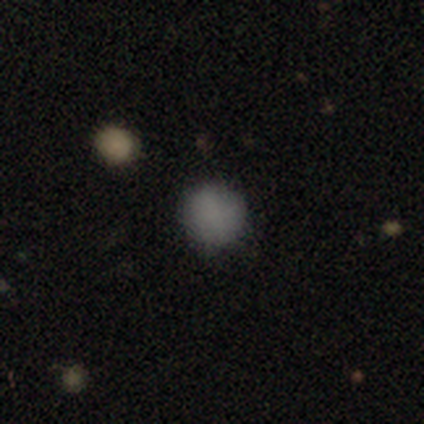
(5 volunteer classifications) This is clearly a smooth galaxy (100%). How rounded: clearly round (100%). Merging: clearly none (100%).